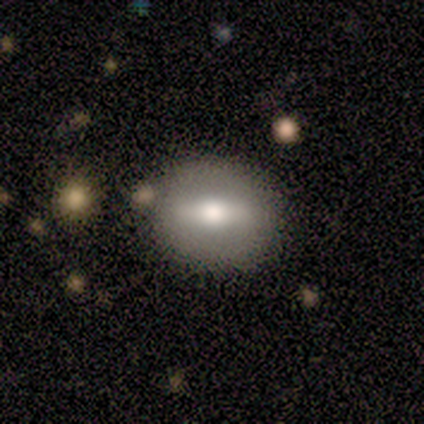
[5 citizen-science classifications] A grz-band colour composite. It shows a smooth galaxy with no disk features (60%) that is in between round and cigar-shaped (67%). Merging: none (100%).